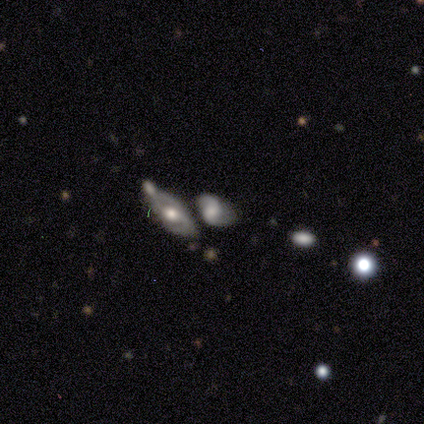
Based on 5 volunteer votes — smooth_or_featured: smooth (p=0.60) [alt: featured or disk p=0.40]
how_rounded: in between (p=1.00)
merging: none (p=0.40) [tied with: minor disturbance p=0.40]